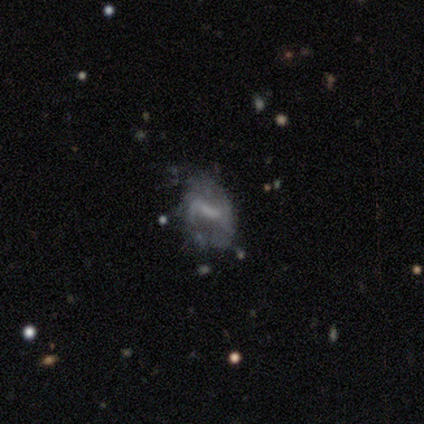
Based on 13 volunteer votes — Q: Smooth or featured?
A: featured or disk (77%); runner-up: smooth (23%)
Q: Edge-on disk?
A: no (90%); runner-up: yes (10%)
Q: Bar?
A: weak (56%); runner-up: strong (44%)
Q: Spiral arms?
A: yes (78%); runner-up: no (22%)
Q: Spiral winding?
A: tight (71%); runner-up: loose (29%)
Q: Spiral arm count?
A: 2 (43%); tied with: can't tell (43%)
Q: Bulge size?
A: small (44%); tied with: none (44%)
Q: Merging?
A: none (54%); runner-up: major disturbance (31%)